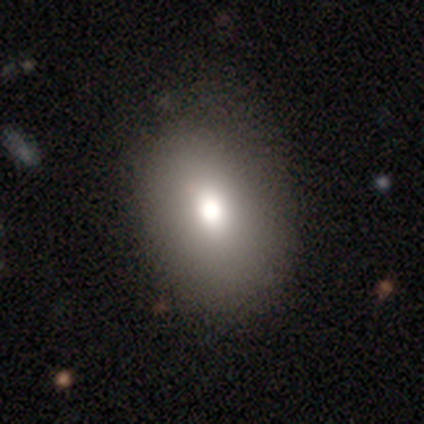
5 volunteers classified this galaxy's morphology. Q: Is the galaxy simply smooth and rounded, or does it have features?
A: smooth — 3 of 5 (60%).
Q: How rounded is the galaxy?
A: in between — 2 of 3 (67%).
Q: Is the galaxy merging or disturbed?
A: none — 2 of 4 (50%).